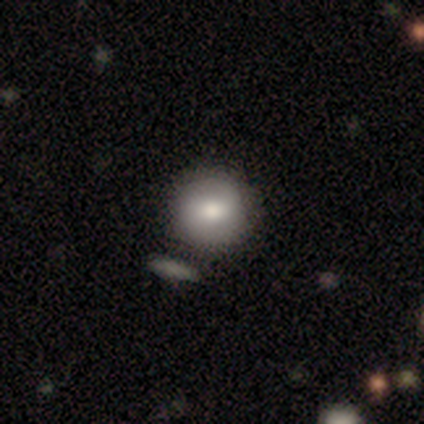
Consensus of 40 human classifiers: A smooth galaxy with no disk features (70%) that is round (89%).

Vote fractions:
- Smooth or featured? smooth: 70% / featured or disk: 28% / star or artifact: 2%
- How rounded? round: 89% / in between: 11% / cigar-shaped: 0%
- Merging? none: 49% / merger: 15% / minor disturbance: 8% / major disturbance: 5%